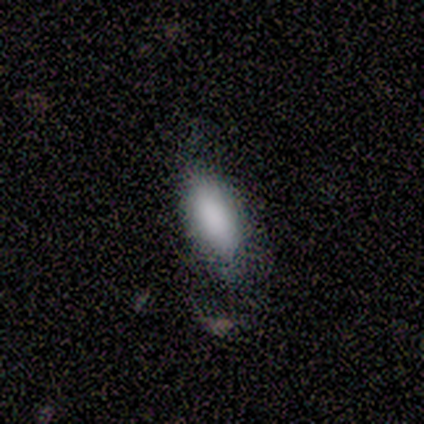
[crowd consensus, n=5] smooth 100%, featured or disk 0%, star or artifact 0%. Down the decision tree: how rounded — in between (100%); merging — none (60%).